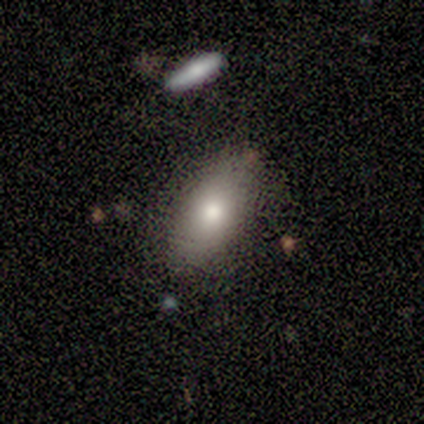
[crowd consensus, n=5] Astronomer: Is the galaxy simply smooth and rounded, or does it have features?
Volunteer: smooth — 60% (runner-up: featured or disk, 40%).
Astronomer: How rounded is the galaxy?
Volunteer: in between — 67%.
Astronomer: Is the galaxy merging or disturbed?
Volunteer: none — 100%.